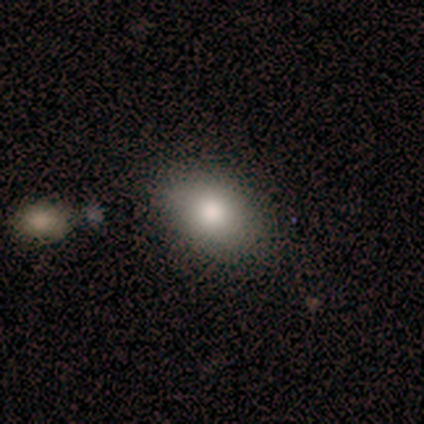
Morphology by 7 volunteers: Overall: smooth (100%). How rounded: in between (86%). Merging: none (71%).